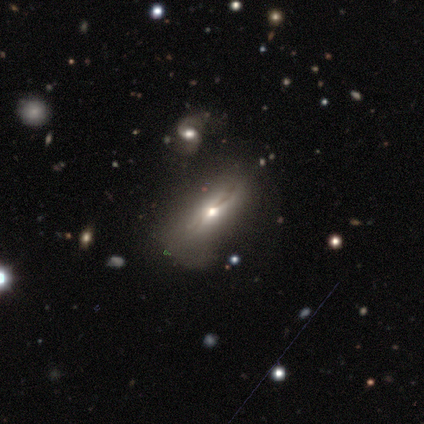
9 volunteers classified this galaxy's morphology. A featured or disk galaxy (67%) viewed edge-on (50%, tied with no) with a rounded central bulge (100%). Merging: minor disturbance (50%).